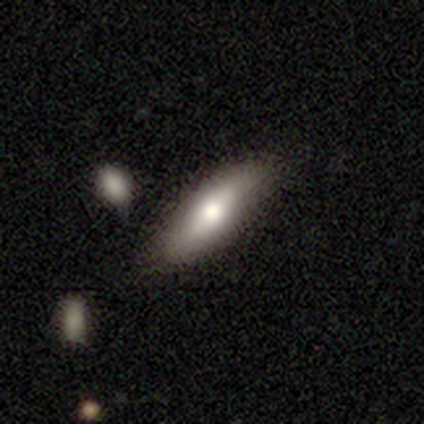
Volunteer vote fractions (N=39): Volunteers were most divided on "how rounded": in between: 52%, cigar-shaped: 48%, round: 0%. More confident: merging — none (74%); smooth or featured — smooth (69%).